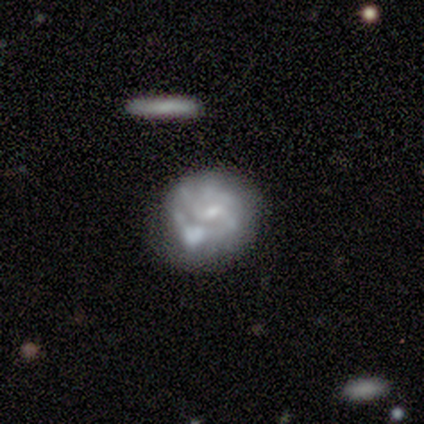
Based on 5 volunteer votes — Overall: featured or disk (60%; smooth 40%). Edge-on disk: no (100%). Bar: no (67%; weak 33%). Spiral arms: no (67%; yes 33%). Bulge size: none (67%; small 33%). Merging: none (40%, tied with minor disturbance).